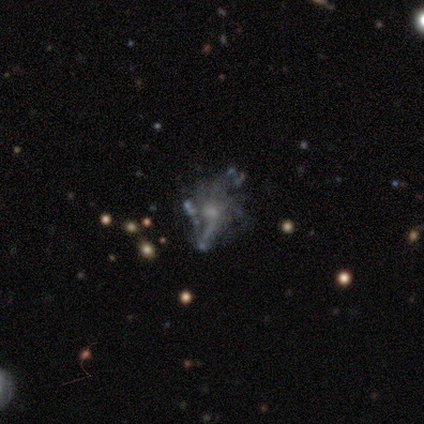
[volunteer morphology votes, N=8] Smooth or featured: featured or disk — 62% (star or artifact — 25%)
Edge-on disk: no — 100%
Bar: no — 80% (strong — 20%)
Spiral arms: no — 60% (yes — 40%)
Bulge size: moderate — 40% (tied with small — 40%)
Merging: major disturbance — 50% (none — 17%)